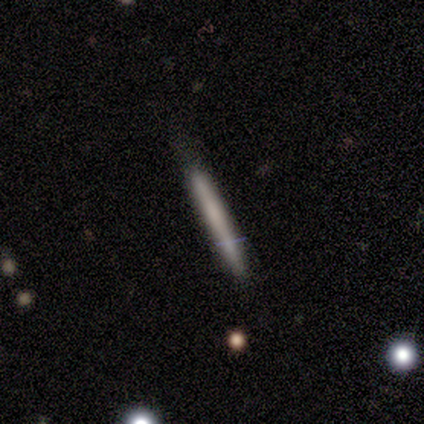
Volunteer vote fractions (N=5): Volunteers were most divided on "smooth or featured": featured or disk: 60%, smooth: 40%, star or artifact: 0%. More confident: edge-on disk — yes (100%); edge-on bulge — none (100%); merging — none (100%).